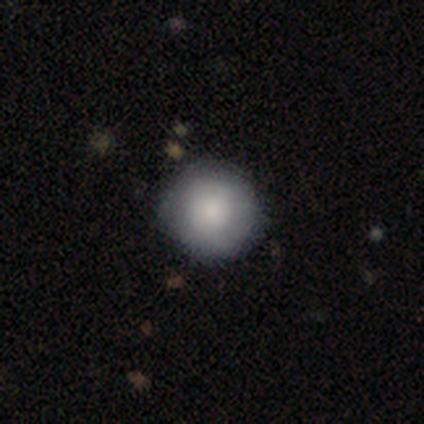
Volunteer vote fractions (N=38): Volunteers were most divided on "merging": none: 49%, minor disturbance: 3%, major disturbance: 3%, merger: 3%. More confident: how rounded — round (100%); smooth or featured — smooth (87%).